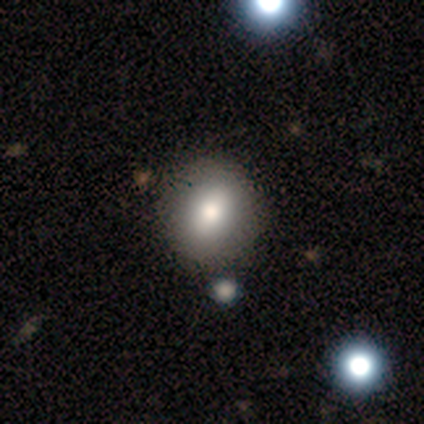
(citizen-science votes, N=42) Overall: smooth (86%). How rounded: round (69%; in between 31%). Merging: none (54%).